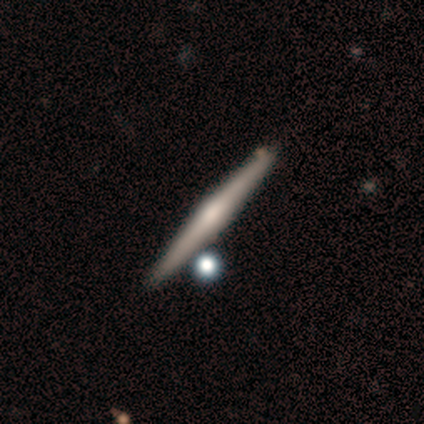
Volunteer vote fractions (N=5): A featured or disk galaxy (100%) viewed edge-on (100%) with a rounded central bulge (100%).

Vote fractions:
- Smooth or featured? featured or disk: 100% / smooth: 0% / star or artifact: 0%
- Edge-on disk? yes: 100% / no: 0%
- Edge-on bulge? rounded: 100% / boxy: 0% / none: 0%
- Merging? none: 100% / minor disturbance: 0% / major disturbance: 0% / merger: 0%